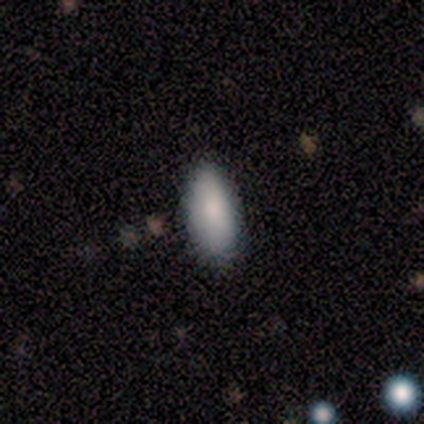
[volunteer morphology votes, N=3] smooth 100%, featured or disk 0%, star or artifact 0%. Down the decision tree: how rounded — in between (100%); merging — minor disturbance (67%).